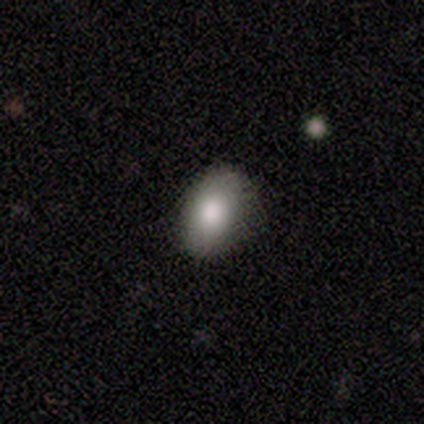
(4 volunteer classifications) A smooth galaxy with no disk features (75%) that is in between round and cigar-shaped (100%). Merging: none (100%).